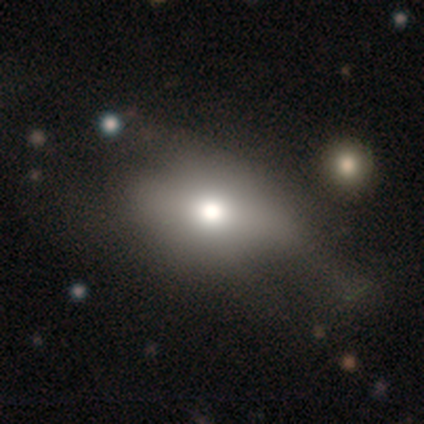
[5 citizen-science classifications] Smooth or featured? 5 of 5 (100%) said smooth. How rounded? 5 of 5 (100%) said in between. Merging? 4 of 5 (80%) said none.